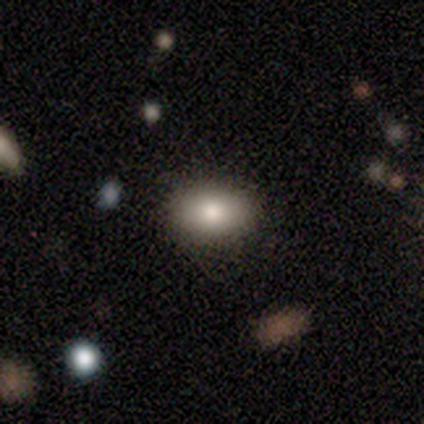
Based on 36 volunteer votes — A smooth galaxy with no disk features (78%) that is in between round and cigar-shaped (82%).

Vote fractions:
- Smooth or featured? smooth: 78% / featured or disk: 11% / star or artifact: 11%
- How rounded? in between: 82% / round: 18% / cigar-shaped: 0%
- Merging? none: 91% / minor disturbance: 9% / major disturbance: 0% / merger: 0%